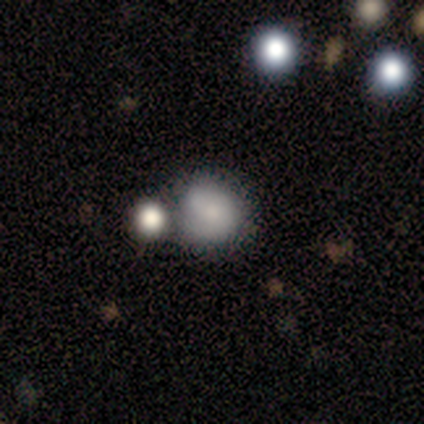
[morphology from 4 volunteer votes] A smooth galaxy with no disk features (75%) that is round (67%).

Vote fractions:
- Smooth or featured? smooth: 75% / star or artifact: 25% / featured or disk: 0%
- How rounded? round: 67% / in between: 33% / cigar-shaped: 0%
- Merging? merger: 100% / none: 0% / minor disturbance: 0% / major disturbance: 0%